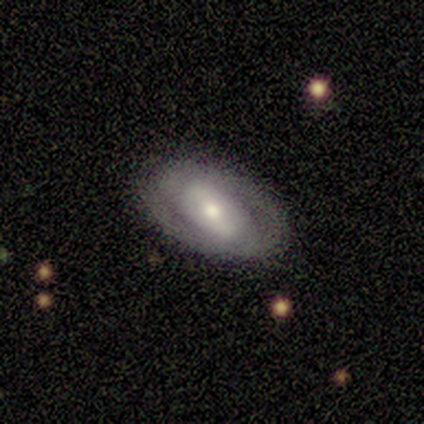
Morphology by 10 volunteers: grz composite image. It shows a featured or disk galaxy (60%) with a weak bar (67%), 2 (100%) tight (50%) spiral arms (67%) and a large central bulge (50%, tied with moderate). Merging: none (89%).